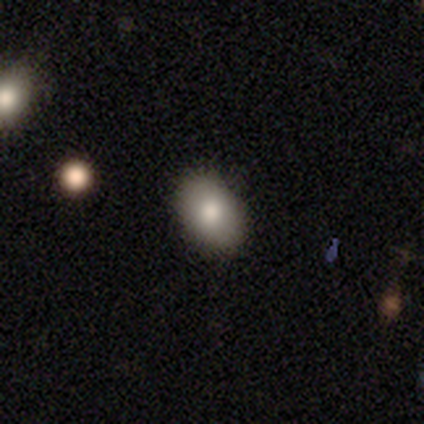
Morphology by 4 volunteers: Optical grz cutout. It shows a smooth galaxy with no disk features (75%) that is in between round and cigar-shaped (100%). Merging: none (100%).